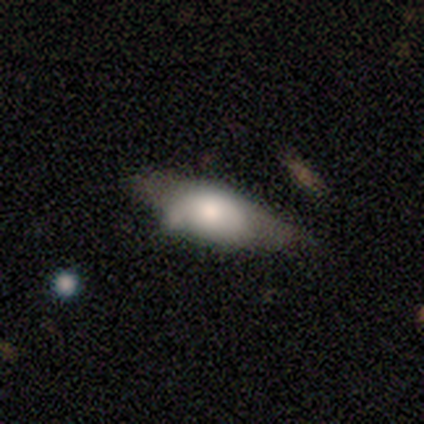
smooth 80%, featured or disk 20%, star or artifact 0%. Down the decision tree: how rounded — in between (100%); merging — none (40%, tied with minor disturbance).